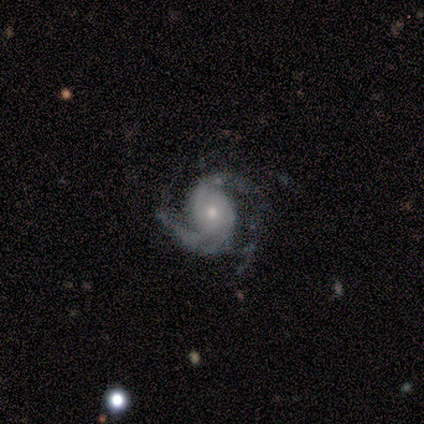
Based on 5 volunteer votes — Smooth or featured?
  - featured or disk: 100% *
  - smooth: 0%
  - star or artifact: 0%
Edge-on disk?
  - no: 100% *
  - yes: 0%
Bar?
  - no: 100% *
  - strong: 0%
  - weak: 0%
Spiral arms?
  - yes: 100% *
  - no: 0%
Spiral winding?
  - tight: 60% *
  - medium: 40%
  - loose: 0%
Spiral arm count?
  - 2: 100% *
  - 1: 0%
  - 3: 0%
  - 4: 0%
  - more than 4: 0%
  - can't tell: 0%
Bulge size?
  - moderate: 60% *
  - small: 40%
  - dominant: 0%
  - large: 0%
  - none: 0%
Merging?
  - none: 100% *
  - minor disturbance: 0%
  - major disturbance: 0%
  - merger: 0%